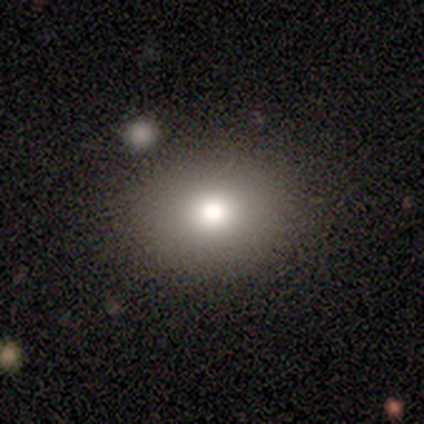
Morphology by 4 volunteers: type=smooth (75%); roundness=in between (100%); merging=none (33%, tied with minor disturbance and merger).